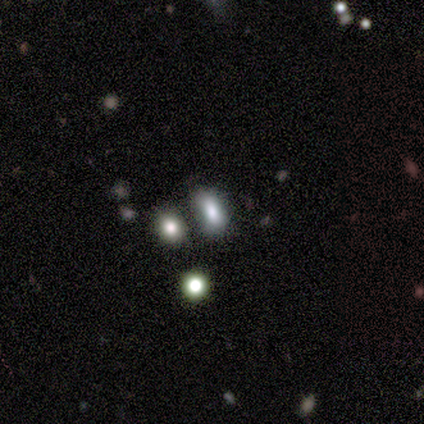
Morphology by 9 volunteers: type=smooth (67%); roundness=in between (83%); merging=none (67%).